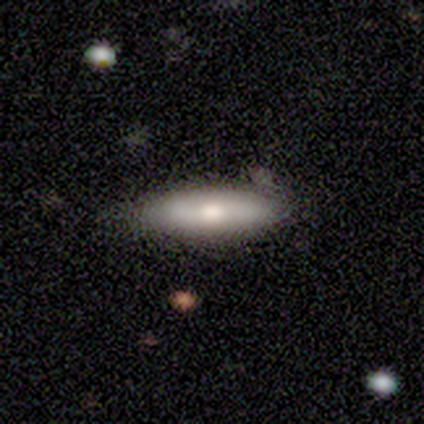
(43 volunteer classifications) A smooth galaxy with no disk features (67%) that is cigar-shaped (66%).

Vote fractions:
- Smooth or featured? smooth: 67% / featured or disk: 30% / star or artifact: 2%
- How rounded? cigar-shaped: 66% / in between: 34% / round: 0%
- Merging? none: 62% / minor disturbance: 31% / merger: 5% / major disturbance: 2%